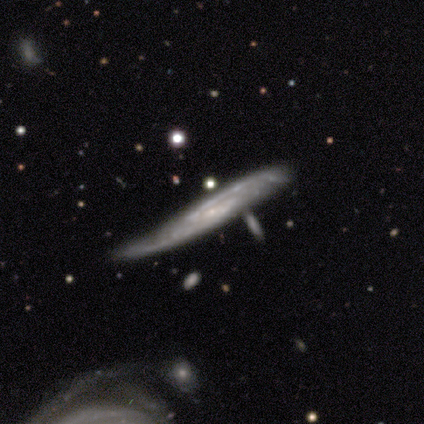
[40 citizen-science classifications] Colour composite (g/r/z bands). It shows a featured or disk galaxy (88%) with a weak bar (47%), 2 (79%) tight (37%, tied with medium) spiral arms (100%) and a small central bulge (79%). Merging: none (42%).